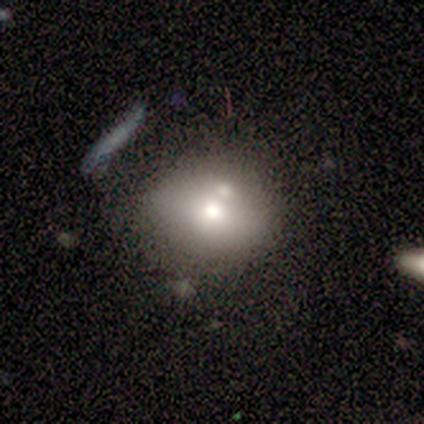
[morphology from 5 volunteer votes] Smooth or featured: featured or disk — 60% (smooth — 40%)
Edge-on disk: no — 100%
Bar: no — 100%
Spiral arms: no — 100%
Bulge size: moderate — 33% (tied with small — 33%; none — 33%)
Merging: none — 60% (minor disturbance — 20%)